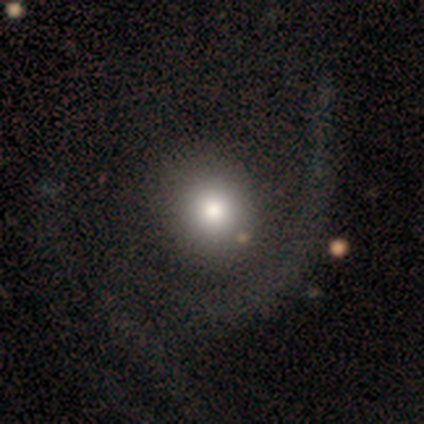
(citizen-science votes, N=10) A smooth galaxy with no disk features (60%) that is round (83%). Merging: none (56%).